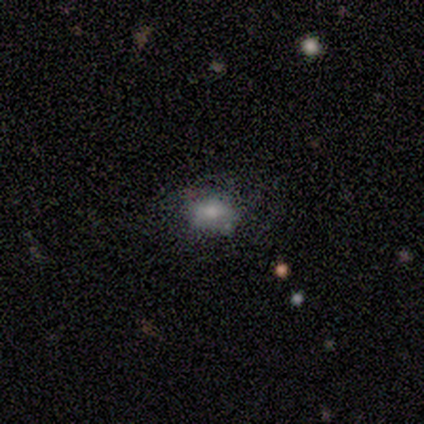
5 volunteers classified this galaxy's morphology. Smooth or featured: smooth — 60% (featured or disk — 20%)
How rounded: in between — 100%
Merging: minor disturbance — 50% (major disturbance — 25%)